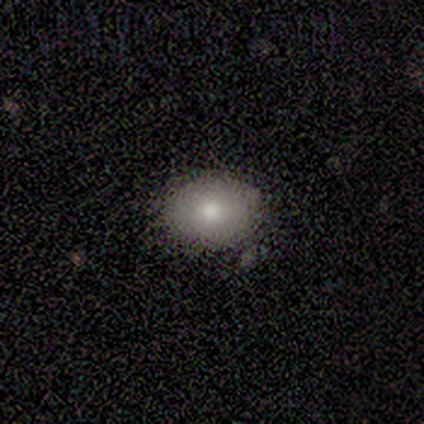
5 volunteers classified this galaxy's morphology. This appears to be a smooth galaxy with no disk features (80%) that is in between round and cigar-shaped (50%). Merging: none (80%).